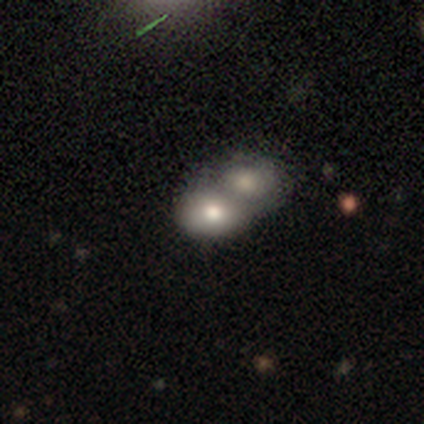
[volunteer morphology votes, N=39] Smooth or featured?
  - smooth: 74% *
  - featured or disk: 18%
  - star or artifact: 8%
How rounded?
  - in between: 69% *
  - round: 31%
  - cigar-shaped: 0%
Merging?
  - merger: 86% *
  - none: 14%
  - minor disturbance: 0%
  - major disturbance: 0%